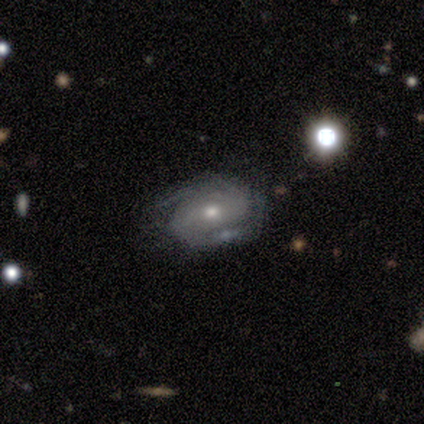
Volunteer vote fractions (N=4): Smooth or featured? 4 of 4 (100%) said featured or disk. Edge-on disk? 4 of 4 (100%) said no. Bar? 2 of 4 (50%, tied with no) said strong. Spiral arms? 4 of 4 (100%) said yes. Spiral winding? 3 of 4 (75%) said tight. Spiral arm count? 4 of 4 (100%) said 2. Bulge size? 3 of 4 (75%) said moderate. Merging? 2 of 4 (50%) said none.